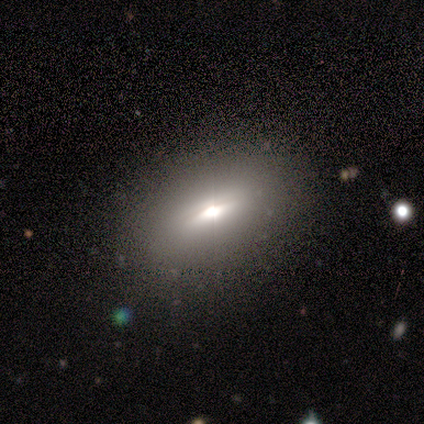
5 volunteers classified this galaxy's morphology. Volunteers were most divided on "edge-on disk": yes: 67%, no: 33%. More confident: edge-on bulge — rounded (100%); merging — none (75%); smooth or featured — featured or disk (60%).